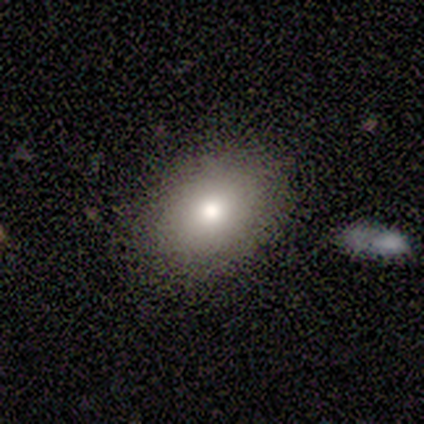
smooth_or_featured: smooth (p=0.60) [alt: featured or disk p=0.20]
how_rounded: in between (p=0.67) [alt: round p=0.33]
merging: none (p=0.50) [tied with: minor disturbance p=0.50]